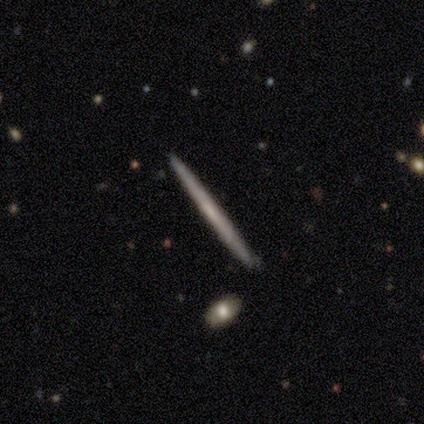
Smooth or featured? 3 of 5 (60%) said featured or disk. Edge-on disk? 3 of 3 (100%) said yes. Edge-on bulge? 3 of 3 (100%) said none. Merging? 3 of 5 (60%) said none.